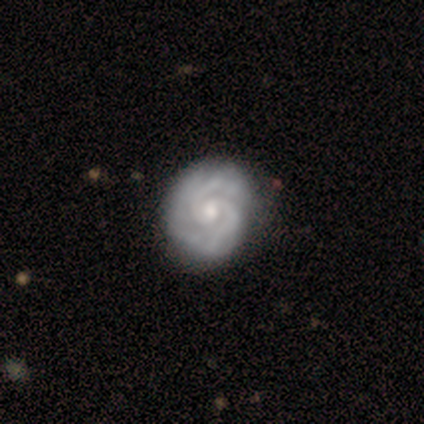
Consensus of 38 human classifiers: Morphology: type=featured or disk (92%); edge-on=no (100%); bar=no (77%); spiral arms=yes (100%); winding=tight (57%); arm count=2 (69%); bulge=moderate (69%); merging=none (51%).